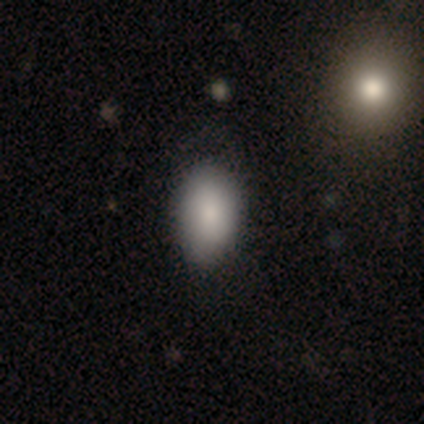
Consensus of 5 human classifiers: This is clearly a smooth galaxy (80%). How rounded: clearly in between (100%). Merging: clearly none (80%).